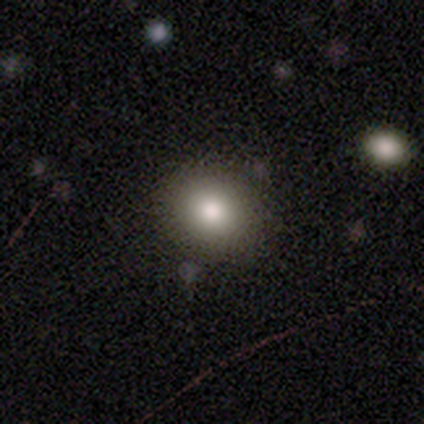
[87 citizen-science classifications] A smooth galaxy with no disk features (82%) that is round (85%). Merging: none (88%).